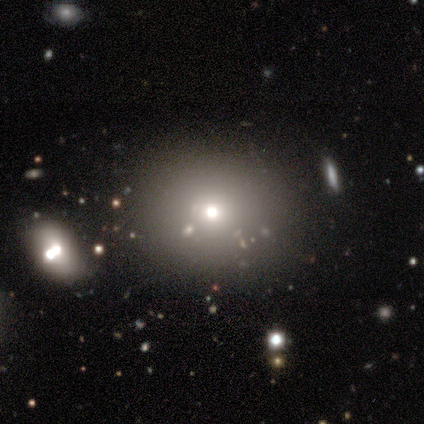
A smooth galaxy with no disk features (40%, tied with star or artifact) that is round (50%, tied with in between).

Vote fractions:
- Smooth or featured? smooth: 40% (tied) / star or artifact: 40% (tied) / featured or disk: 20%
- How rounded? round: 50% (tied) / in between: 50% (tied) / cigar-shaped: 0%
- Merging? none: 100% / minor disturbance: 0% / major disturbance: 0% / merger: 0%